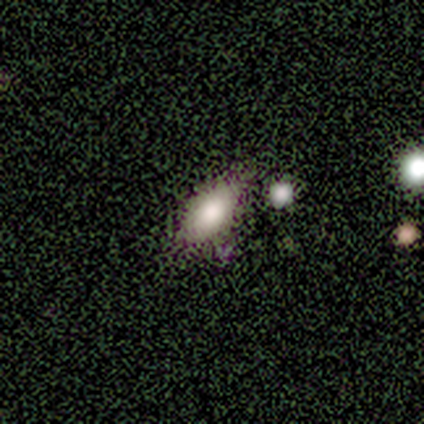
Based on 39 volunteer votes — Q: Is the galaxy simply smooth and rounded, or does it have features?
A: smooth — 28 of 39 (72%).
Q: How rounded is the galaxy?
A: in between — 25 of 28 (89%).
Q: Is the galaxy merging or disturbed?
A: none — 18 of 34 (53%).